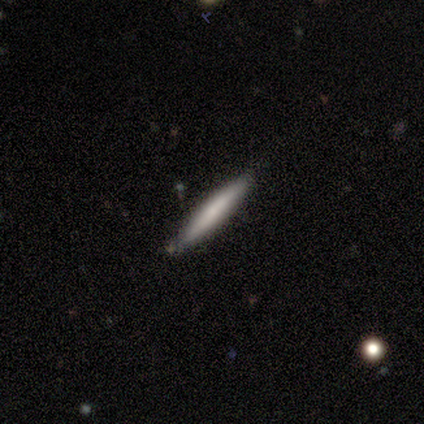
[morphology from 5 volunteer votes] Overall: featured or disk (60%; smooth 40%). Edge-on disk: yes (100%). Edge-on bulge: rounded (67%; none 33%). Merging: none (100%).